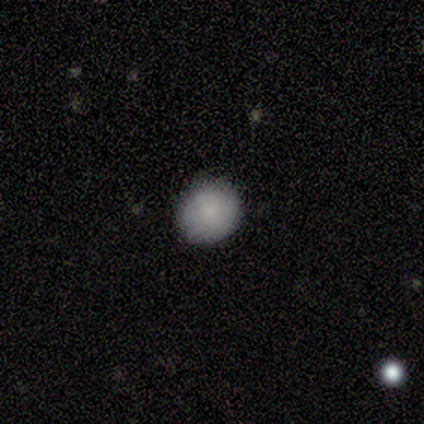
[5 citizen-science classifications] A smooth galaxy with no disk features (80%) that is round (100%). Merging: none (100%).